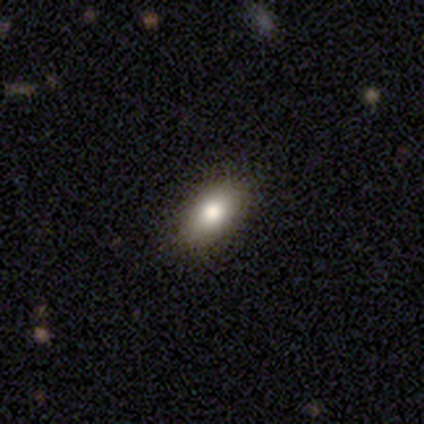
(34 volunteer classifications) Smooth or featured? smooth (71%)
How rounded? in between (92%)
Merging? none (93%)